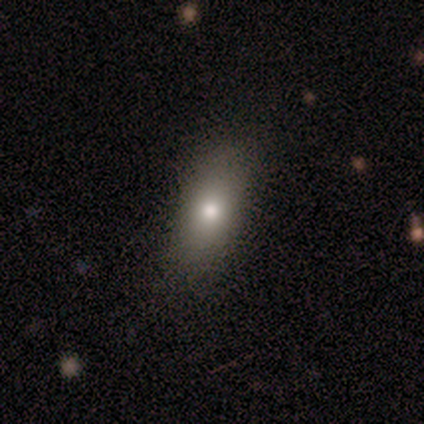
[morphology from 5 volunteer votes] Smooth or featured? smooth (80%)
How rounded? in between (100%)
Merging? none (80%)